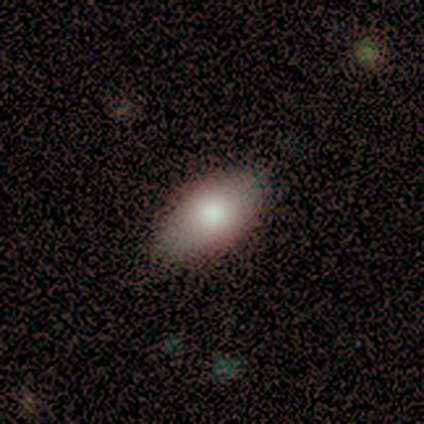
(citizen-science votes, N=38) Smooth or featured? smooth (68%)
How rounded? in between (100%)
Merging? none (86%)